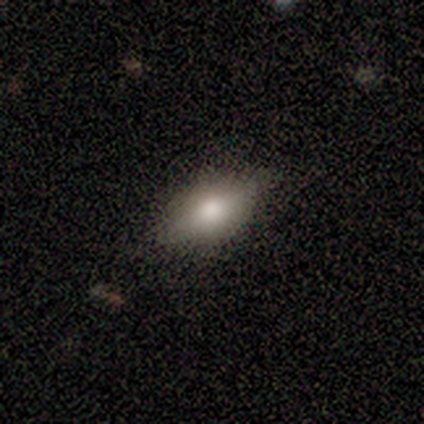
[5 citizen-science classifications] Q: Smooth or featured?
A: smooth (40%); tied with: featured or disk (40%)
Q: How rounded?
A: round (50%); tied with: in between (50%)
Q: Merging?
A: none (75%); runner-up: merger (25%)